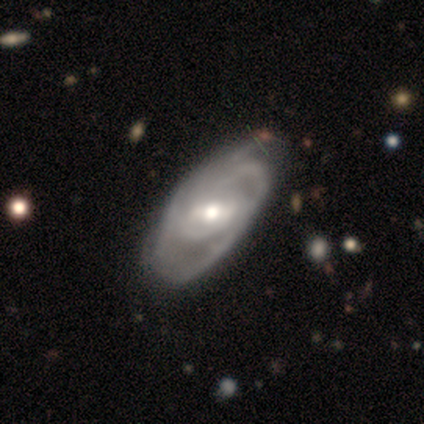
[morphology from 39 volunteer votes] type=featured or disk (97%); edge-on=no (95%); bar=weak (47%); spiral arms=yes (97%); winding=tight (46%, tied with medium); arm count=2 (69%); bulge=moderate (75%); merging=none (56%).